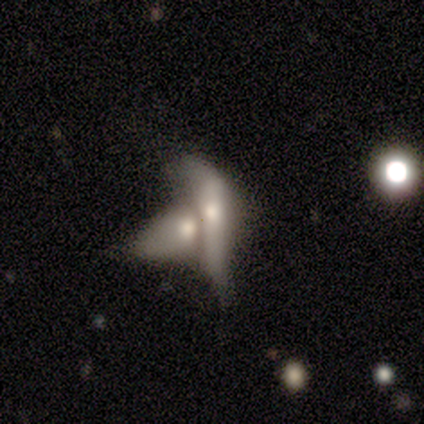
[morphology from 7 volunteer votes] Smooth or featured: smooth — 57% (featured or disk — 43%)
How rounded: in between — 100%
Merging: merger — 86% (none — 14%)